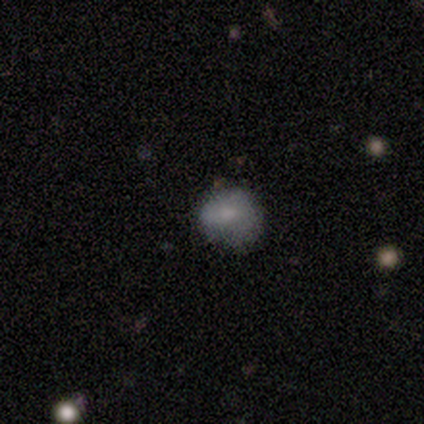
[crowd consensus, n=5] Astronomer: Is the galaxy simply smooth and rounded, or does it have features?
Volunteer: smooth — 80%.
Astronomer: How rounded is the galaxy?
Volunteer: round — 100%.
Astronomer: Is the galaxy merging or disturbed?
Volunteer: none — 75%.